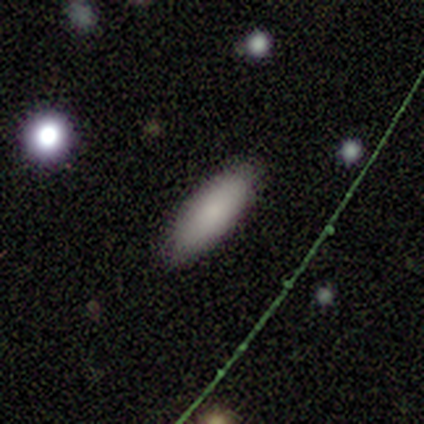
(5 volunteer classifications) Volunteers were most divided on "merging": none: 75%, minor disturbance: 25%, major disturbance: 0%, merger: 0%. More confident: how rounded — cigar-shaped (100%); smooth or featured — smooth (80%).